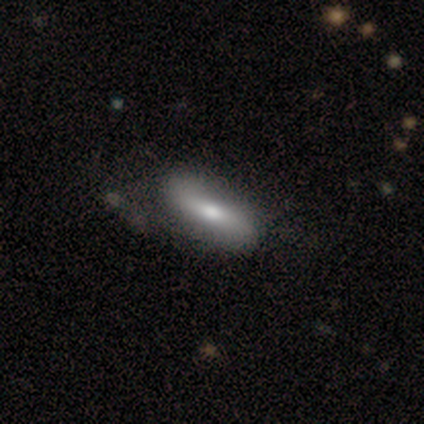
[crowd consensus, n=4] This is possibly a smooth galaxy (50%). How rounded: possibly in between (50%, tied with cigar-shaped). Merging: clearly none (100%).